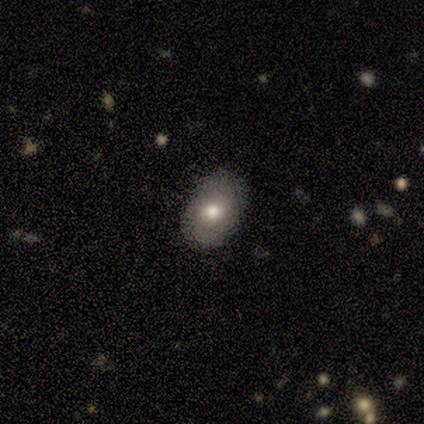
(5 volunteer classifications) Q: Smooth or featured?
A: smooth (60%); runner-up: featured or disk (40%)
Q: How rounded?
A: in between (100%)
Q: Merging?
A: none (100%)